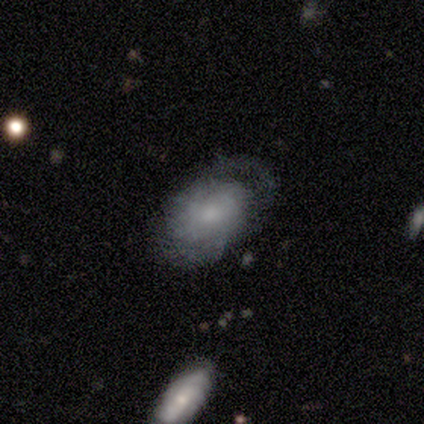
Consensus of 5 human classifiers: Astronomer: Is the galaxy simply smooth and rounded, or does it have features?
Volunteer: featured or disk — 60% (runner-up: smooth, 40%).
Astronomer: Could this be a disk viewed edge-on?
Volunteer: no — 100%.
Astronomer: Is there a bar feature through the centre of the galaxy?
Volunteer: no — 100%.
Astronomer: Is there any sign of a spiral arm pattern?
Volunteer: no — 67%.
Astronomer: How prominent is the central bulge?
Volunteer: small — 67%.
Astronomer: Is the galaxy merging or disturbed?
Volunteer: minor disturbance — 40%, tied with major disturbance at 40%.